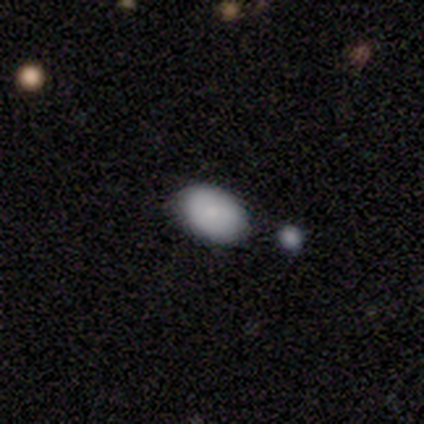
smooth-or-featured: smooth: 100% | featured or disk: 0% | star or artifact: 0%
  how-rounded: in between: 100% | round: 0% | cigar-shaped: 0%
  merging: none: 67% | minor disturbance: 33% | major disturbance: 0% | merger: 0%